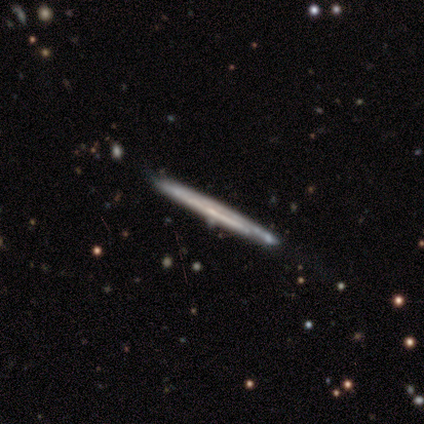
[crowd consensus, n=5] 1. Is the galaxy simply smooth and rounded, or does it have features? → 80% featured or disk, 20% smooth, 0% star or artifact.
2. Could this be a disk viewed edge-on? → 100% yes, 0% no.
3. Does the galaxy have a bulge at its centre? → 100% none, 0% boxy, 0% rounded.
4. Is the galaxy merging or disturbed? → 100% none, 0% minor disturbance, 0% major disturbance, 0% merger.